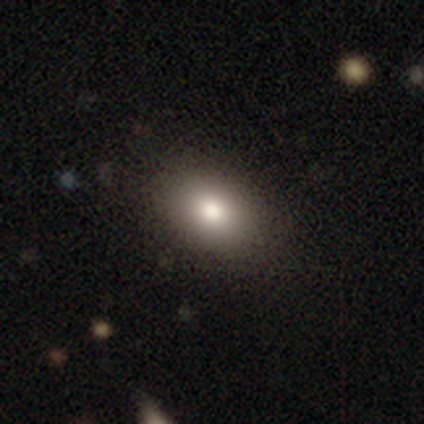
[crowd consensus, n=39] smooth-or-featured: smooth: 79% | featured or disk: 10% | star or artifact: 10%
  how-rounded: in between: 90% | round: 10% | cigar-shaped: 0%
  merging: none: 89% | minor disturbance: 6% | major disturbance: 3% | merger: 3%